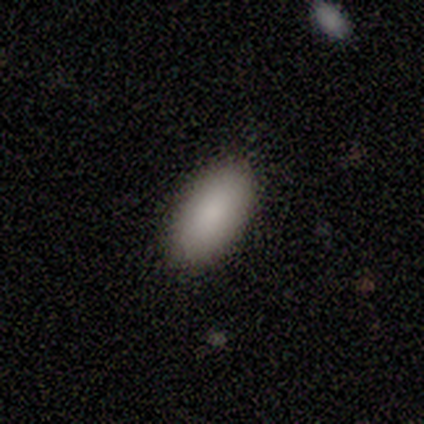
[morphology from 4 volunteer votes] type=smooth (100%); roundness=in between (100%); merging=none (100%).